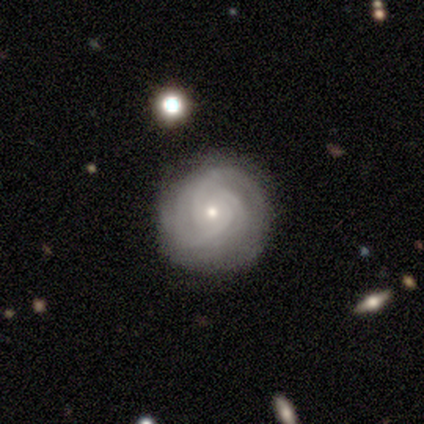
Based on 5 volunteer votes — Q: Smooth or featured?
A: featured or disk (80%); runner-up: smooth (20%)
Q: Edge-on disk?
A: no (100%)
Q: Bar?
A: no (75%); runner-up: strong (25%)
Q: Spiral arms?
A: yes (100%)
Q: Spiral winding?
A: tight (75%); runner-up: medium (25%)
Q: Spiral arm count?
A: 3 (100%)
Q: Bulge size?
A: small (75%); runner-up: dominant (25%)
Q: Merging?
A: none (60%); runner-up: minor disturbance (40%)